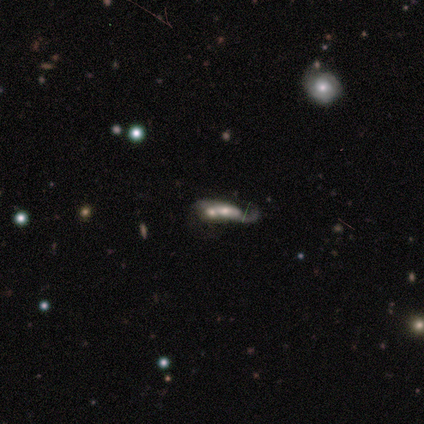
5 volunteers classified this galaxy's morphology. Smooth or featured: featured or disk — 60% (smooth — 40%)
Edge-on disk: no — 100%
Bar: no — 100%
Spiral arms: no — 67% (yes — 33%)
Bulge size: large — 33% (tied with moderate — 33%; small — 33%)
Merging: merger — 80% (none — 20%)